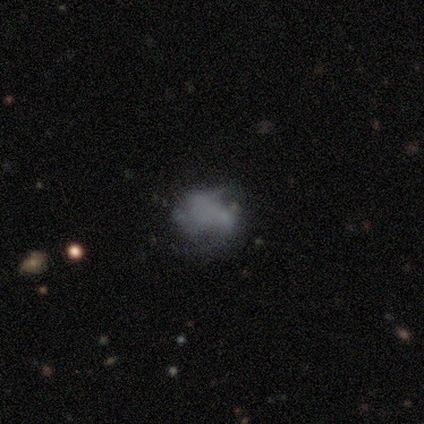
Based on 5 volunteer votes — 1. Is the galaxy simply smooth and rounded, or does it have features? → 60% smooth, 40% featured or disk, 0% star or artifact.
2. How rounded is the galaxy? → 100% round, 0% in between, 0% cigar-shaped.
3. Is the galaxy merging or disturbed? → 40% minor disturbance (tied), 40% major disturbance (tied), 20% none, 0% merger.